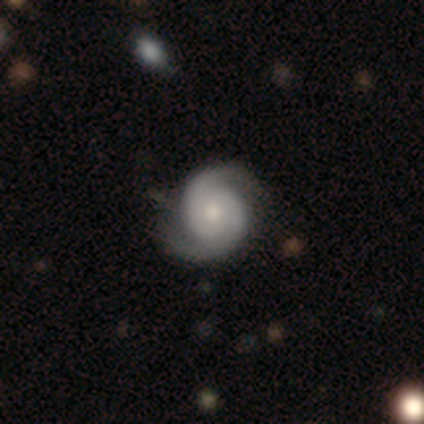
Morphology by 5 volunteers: This is clearly a featured or disk galaxy (100%). It is clearly not viewed edge-on (100%). Bar: clearly no (100%). Spiral arm pattern: clearly yes (100%). Spiral arm count: clearly 2 (80%). Spiral winding: likely tight (60%). Central bulge: likely moderate (60%). Merging: marginally none (40%, tied with minor disturbance).